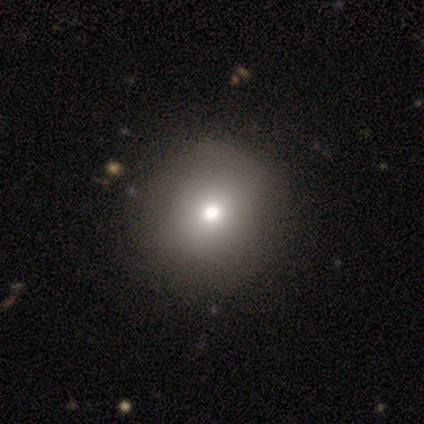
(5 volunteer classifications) This is likely a smooth galaxy (60%). How rounded: clearly round (100%). Merging: clearly none (100%).